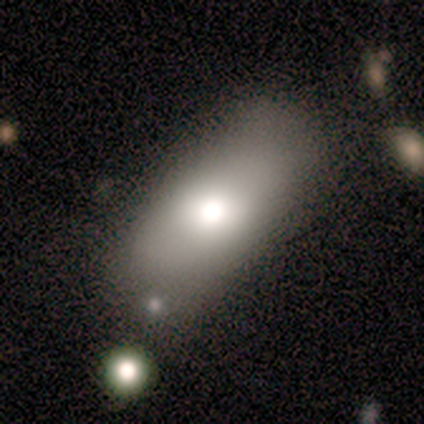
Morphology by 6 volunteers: Overall: smooth (67%). How rounded: in between (100%). Merging: none (80%).